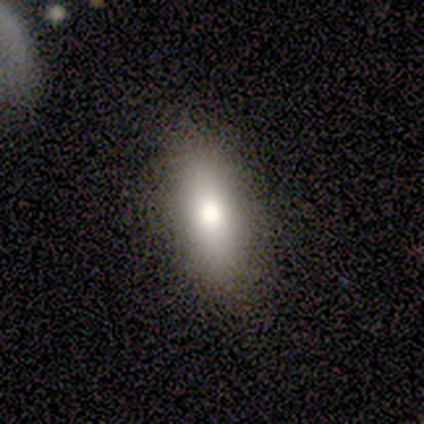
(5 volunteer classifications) Overall: smooth (80%). How rounded: in between (100%). Merging: none (80%).